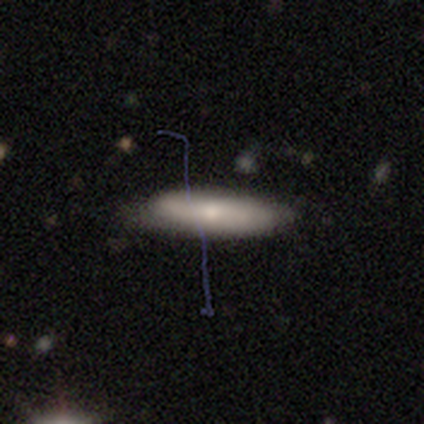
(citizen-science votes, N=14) Smooth or featured: smooth — 79% (featured or disk — 21%)
How rounded: cigar-shaped — 82% (in between — 18%)
Merging: none — 86% (minor disturbance — 14%)